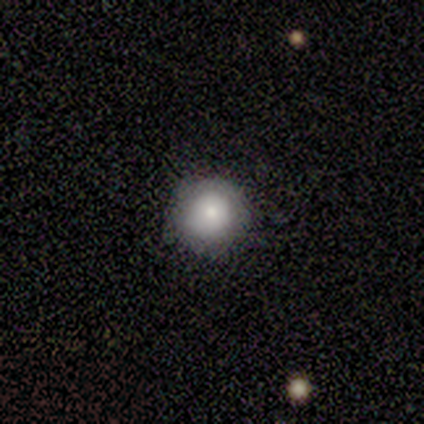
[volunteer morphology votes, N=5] Smooth or featured? smooth (100%)
How rounded? round (100%)
Merging? none (100%)